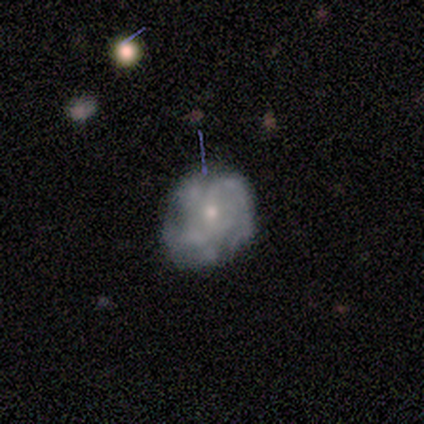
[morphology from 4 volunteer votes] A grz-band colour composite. It shows a featured or disk galaxy (50%) with a weak bar (50%, tied with no), 4 (50%, tied with more than 4) tight (100%) spiral arms (100%) and a moderate central bulge (50%, tied with small). Merging: none (100%).